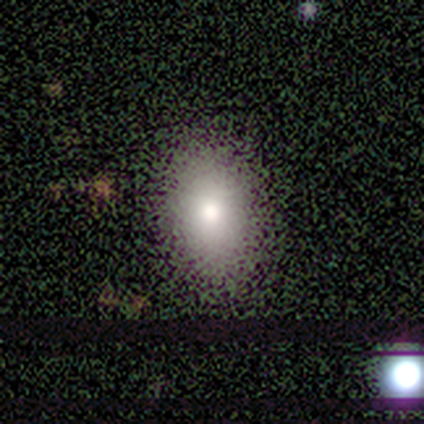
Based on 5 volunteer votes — Volunteers were most divided on "smooth or featured": smooth: 60%, star or artifact: 40%, featured or disk: 0%. More confident: merging — none (100%); how rounded — round (67%).